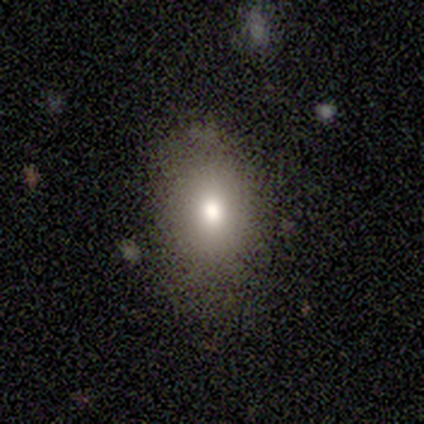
smooth-or-featured: smooth: 75% | star or artifact: 25% | featured or disk: 0%
  how-rounded: round: 67% | in between: 33% | cigar-shaped: 0%
  merging: none: 67% | minor disturbance: 33% | major disturbance: 0% | merger: 0%